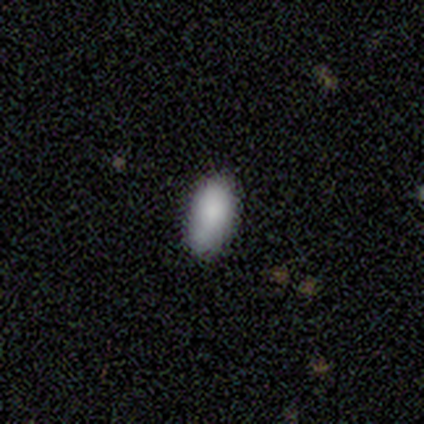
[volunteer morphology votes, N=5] Smooth or featured? 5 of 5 (100%) said smooth. How rounded? 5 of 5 (100%) said in between. Merging? 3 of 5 (60%) said none.